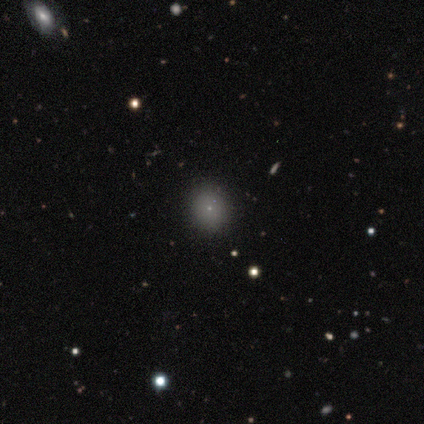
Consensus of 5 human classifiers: Morphology: type=smooth (60%); roundness=round (100%); merging=none (75%).